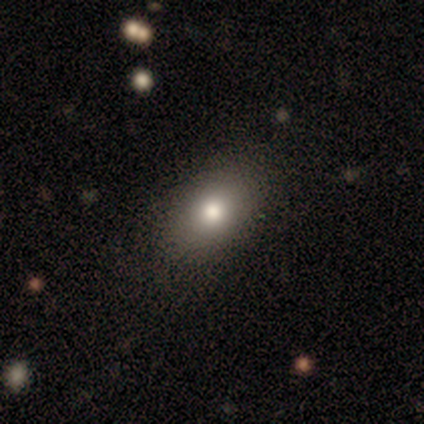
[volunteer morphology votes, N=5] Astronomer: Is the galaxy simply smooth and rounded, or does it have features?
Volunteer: smooth — 100%.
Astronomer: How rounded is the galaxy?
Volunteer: in between — 80%.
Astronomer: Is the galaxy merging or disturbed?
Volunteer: none — 80%.